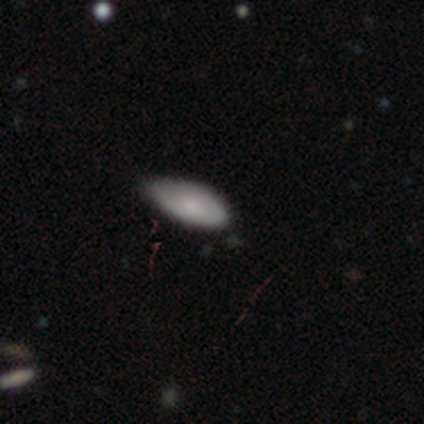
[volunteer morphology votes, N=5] Smooth or featured: smooth — 80% (star or artifact — 20%)
How rounded: in between — 100%
Merging: none — 100%